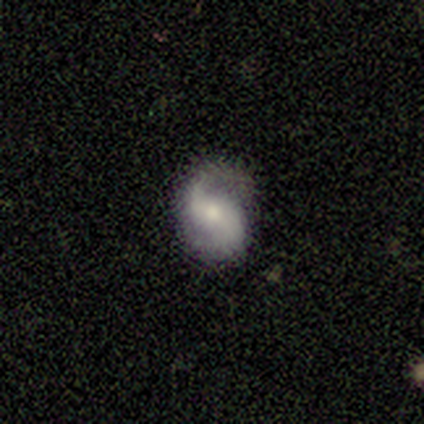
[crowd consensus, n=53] Smooth or featured? 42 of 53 (79%) said featured or disk. Edge-on disk? 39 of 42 (93%) said no. Bar? 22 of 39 (56%) said no. Spiral arms? 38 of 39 (97%) said yes. Spiral winding? 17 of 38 (45%, tied with loose) said medium. Spiral arm count? 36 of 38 (95%) said 2. Bulge size? 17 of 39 (44%) said moderate. Merging? 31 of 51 (61%) said none.